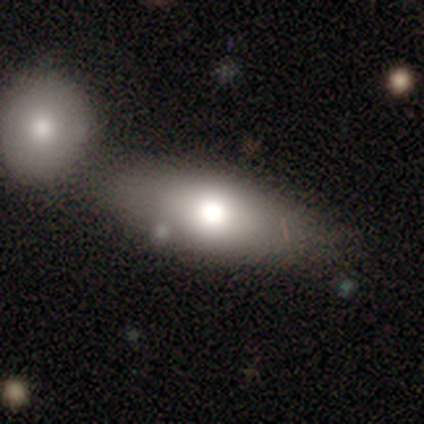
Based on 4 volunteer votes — Volunteers were most divided on "how rounded": in between: 67%, cigar-shaped: 33%, round: 0%. More confident: merging — none (100%); smooth or featured — smooth (75%).